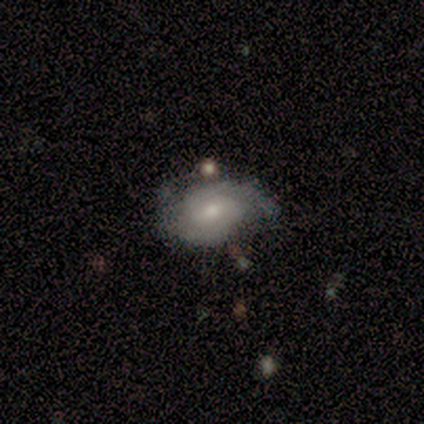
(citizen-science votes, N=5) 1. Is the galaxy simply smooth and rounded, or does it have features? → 80% featured or disk, 20% smooth, 0% star or artifact.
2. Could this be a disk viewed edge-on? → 100% no, 0% yes.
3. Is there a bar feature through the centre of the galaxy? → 100% weak, 0% strong, 0% no.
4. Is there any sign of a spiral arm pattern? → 100% yes, 0% no.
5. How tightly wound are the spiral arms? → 50% tight, 25% medium, 25% loose.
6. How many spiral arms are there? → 100% 2, 0% 1, 0% 3, 0% 4, 0% more than 4, 0% can't tell.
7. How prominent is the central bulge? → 50% moderate (tied), 50% small (tied), 0% dominant, 0% large, 0% none.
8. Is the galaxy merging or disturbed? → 40% none (tied), 40% minor disturbance (tied), 20% merger, 0% major disturbance.